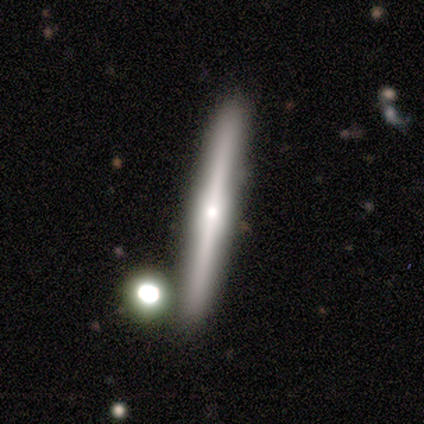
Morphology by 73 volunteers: smooth-or-featured: featured or disk: 74% | smooth: 25% | star or artifact: 1%
  disk-edge-on: yes: 98% | no: 2%
    edge-on-bulge: rounded: 75% | boxy: 13% | none: 11%
  merging: none: 88% | minor disturbance: 8% | merger: 4% | major disturbance: 0%